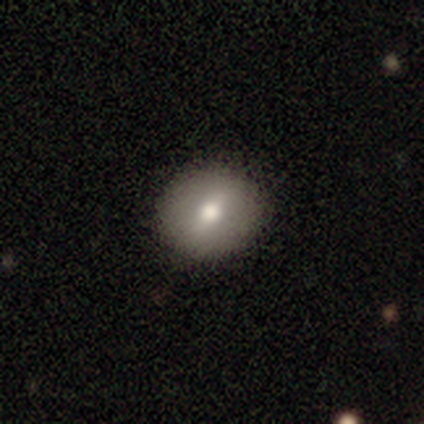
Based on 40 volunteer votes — Overall: smooth (57%; featured or disk 35%). How rounded: round (74%). Merging: none (97%).